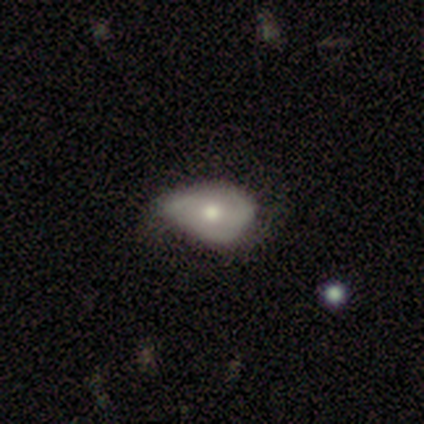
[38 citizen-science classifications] Volunteers were most divided on "merging": minor disturbance: 54%, none: 29%, major disturbance: 17%, merger: 0%. More confident: how rounded — in between (78%); smooth or featured — smooth (61%).